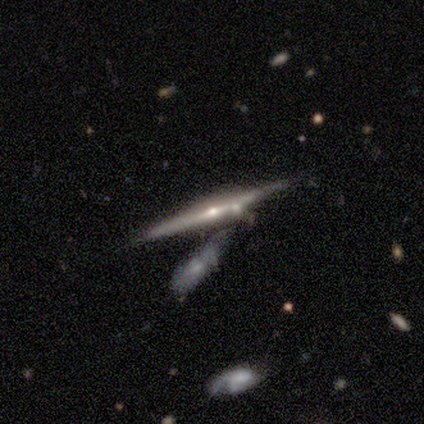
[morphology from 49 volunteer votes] Volunteers were most divided on "merging": none: 52%, merger: 27%, minor disturbance: 20%, major disturbance: 0%. More confident: edge-on disk — yes (98%); edge-on bulge — rounded (90%); smooth or featured — featured or disk (82%).